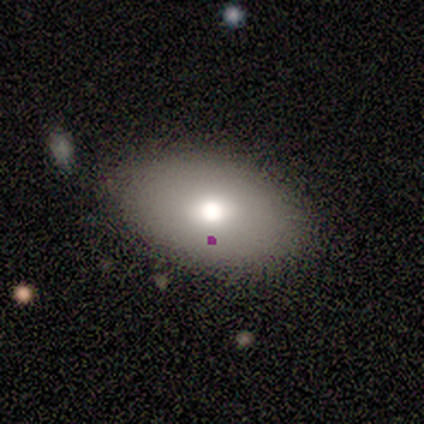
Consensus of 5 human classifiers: Q: Smooth or featured?
A: smooth (80%); runner-up: featured or disk (20%)
Q: How rounded?
A: in between (75%); runner-up: round (25%)
Q: Merging?
A: none (100%)